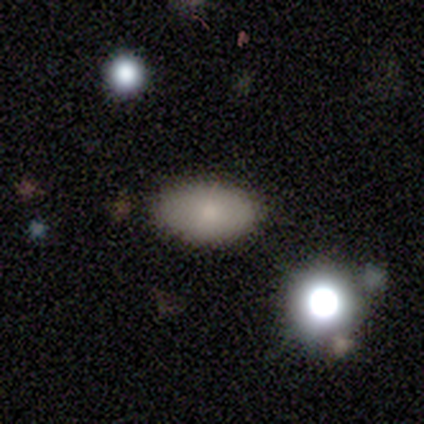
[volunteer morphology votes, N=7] Smooth or featured?
  - smooth: 86% *
  - featured or disk: 14%
  - star or artifact: 0%
How rounded?
  - in between: 100% *
  - round: 0%
  - cigar-shaped: 0%
Merging?
  - none: 100% *
  - minor disturbance: 0%
  - major disturbance: 0%
  - merger: 0%